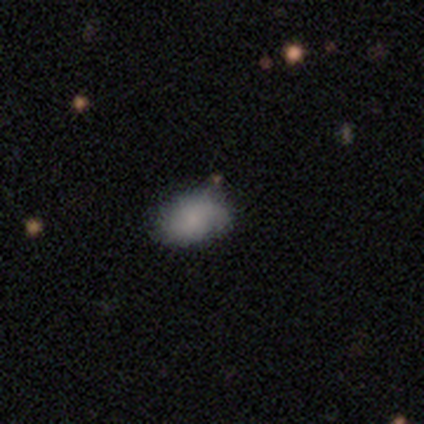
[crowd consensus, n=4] Morphology: type=smooth (100%); roundness=in between (75%); merging=none (100%).